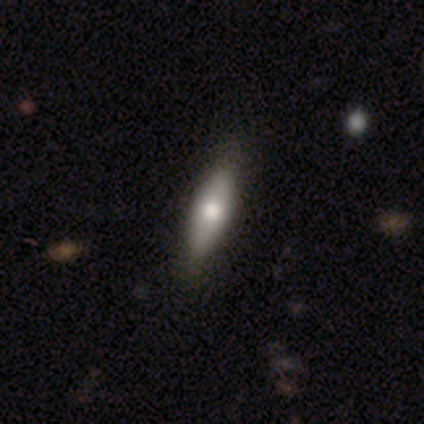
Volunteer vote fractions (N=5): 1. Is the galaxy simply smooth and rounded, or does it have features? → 100% smooth, 0% featured or disk, 0% star or artifact.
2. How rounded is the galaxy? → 80% in between, 20% cigar-shaped, 0% round.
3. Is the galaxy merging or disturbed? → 80% none, 20% minor disturbance, 0% major disturbance, 0% merger.